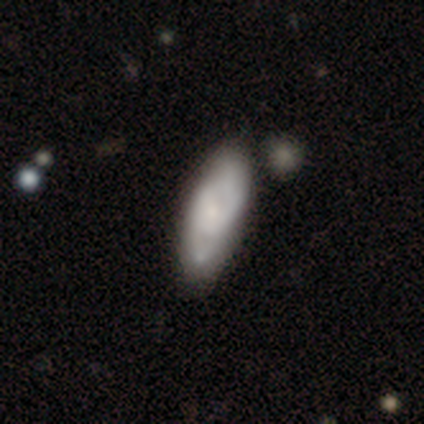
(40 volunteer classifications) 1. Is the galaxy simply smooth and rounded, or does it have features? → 68% featured or disk, 28% smooth, 5% star or artifact.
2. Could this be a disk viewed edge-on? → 93% no, 7% yes.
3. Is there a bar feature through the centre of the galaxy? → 56% no, 24% weak, 20% strong.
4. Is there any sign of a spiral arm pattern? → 80% yes, 20% no.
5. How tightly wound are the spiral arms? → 50% medium, 40% tight, 10% loose.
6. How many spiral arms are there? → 85% 2, 10% can't tell, 5% 1, 0% 3, 0% 4, 0% more than 4.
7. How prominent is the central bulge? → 64% small, 20% moderate, 8% large, 4% dominant, 4% none.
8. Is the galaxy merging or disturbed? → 55% none, 13% merger, 11% minor disturbance, 5% major disturbance.